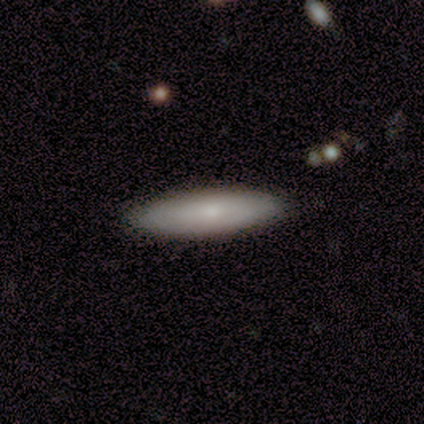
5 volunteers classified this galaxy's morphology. Smooth or featured? 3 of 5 (60%) said smooth. How rounded? 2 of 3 (67%) said in between. Merging? 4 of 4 (100%) said none.